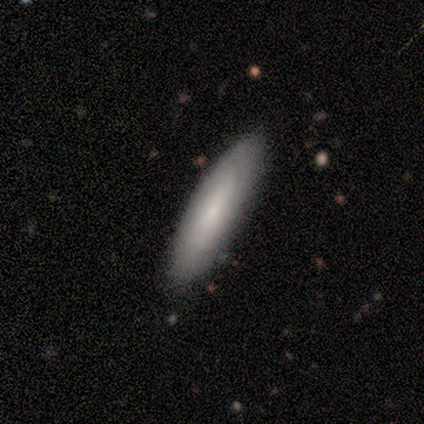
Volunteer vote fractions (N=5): Volunteers were most divided on "smooth or featured": smooth: 60%, featured or disk: 40%, star or artifact: 0%. More confident: how rounded — cigar-shaped (100%); merging — none (100%).